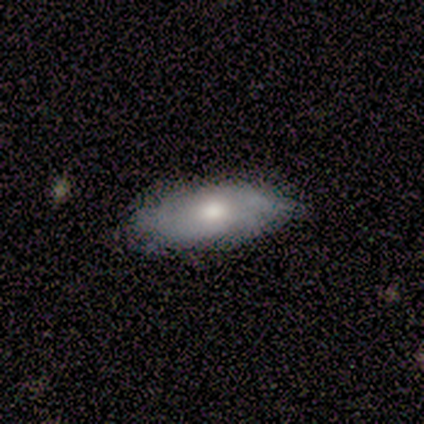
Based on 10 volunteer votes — smooth-or-featured: smooth: 60% | featured or disk: 40% | star or artifact: 0%
  how-rounded: in between: 100% | round: 0% | cigar-shaped: 0%
  merging: none: 80% | minor disturbance: 20% | major disturbance: 0% | merger: 0%